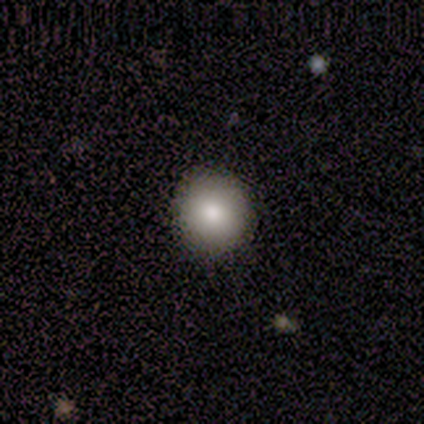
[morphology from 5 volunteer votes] Smooth or featured? 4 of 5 (80%) said smooth. How rounded? 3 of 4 (75%) said round. Merging? 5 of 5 (100%) said none.